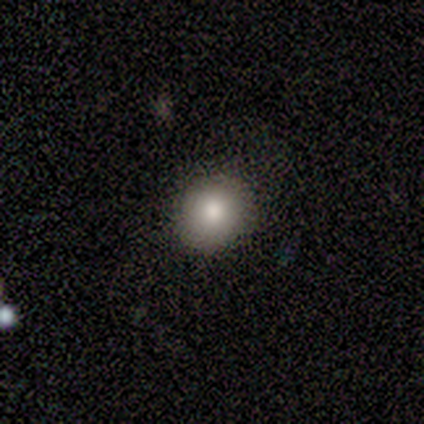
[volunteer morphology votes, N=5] Smooth or featured: smooth — 60% (star or artifact — 40%)
How rounded: round — 100%
Merging: none — 100%